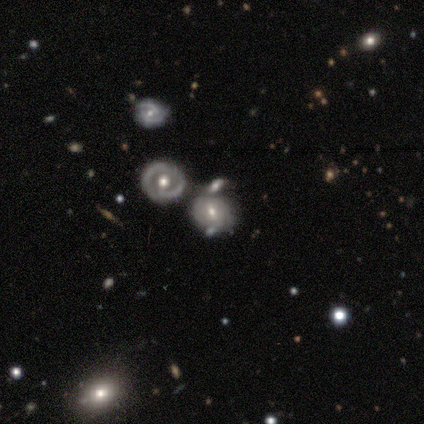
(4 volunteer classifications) This is possibly a featured or disk galaxy (50%). It is clearly not viewed edge-on (100%). Bar: possibly strong (50%, tied with no). Spiral arm pattern: possibly yes (50%, tied with no). Spiral arm count: clearly 2 (100%). Spiral winding: clearly tight (100%). Central bulge: possibly large (50%, tied with small). Merging: likely merger (67%).